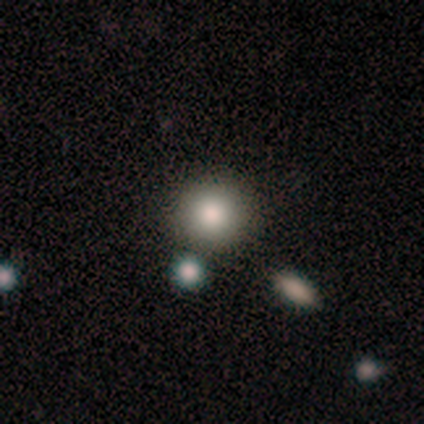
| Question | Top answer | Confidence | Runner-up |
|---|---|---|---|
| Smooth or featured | smooth | 80% | star or artifact (20%) |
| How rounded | round | 100% | — |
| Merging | none | 100% | — |